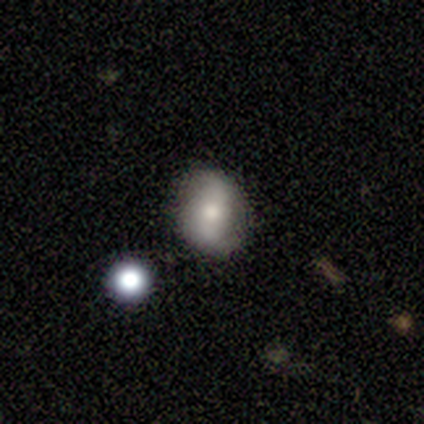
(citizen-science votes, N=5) Smooth or featured: smooth — 80% (star or artifact — 20%)
How rounded: in between — 100%
Merging: none — 50% (tied with minor disturbance — 50%)